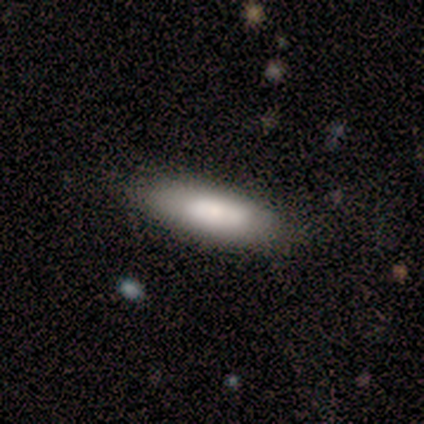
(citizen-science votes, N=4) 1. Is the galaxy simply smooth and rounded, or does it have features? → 75% smooth, 25% star or artifact, 0% featured or disk.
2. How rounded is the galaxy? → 100% in between, 0% round, 0% cigar-shaped.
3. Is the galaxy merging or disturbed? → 67% none, 33% minor disturbance, 0% major disturbance, 0% merger.